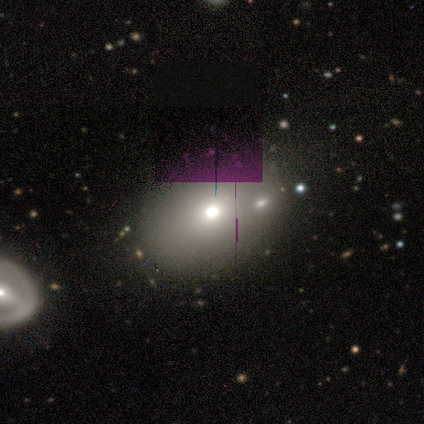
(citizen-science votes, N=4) Smooth or featured: smooth — 75% (star or artifact — 25%)
How rounded: in between — 67% (round — 33%)
Merging: none — 67% (minor disturbance — 33%)